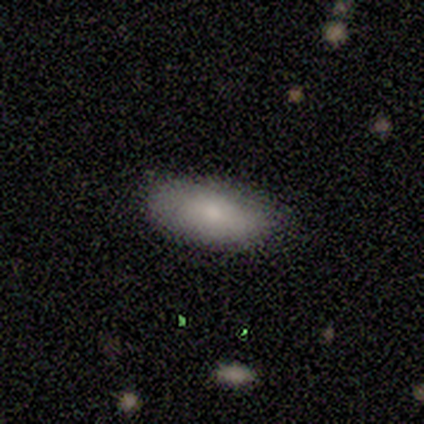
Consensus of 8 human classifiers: Overall: smooth (75%). How rounded: in between (83%). Merging: none (88%).